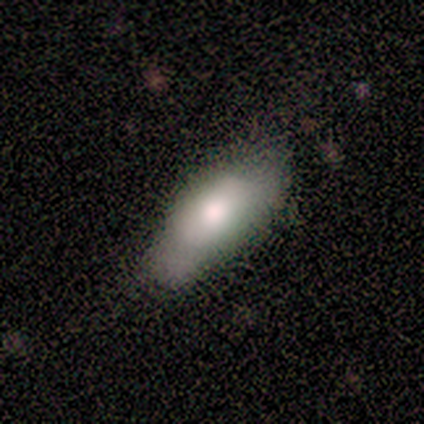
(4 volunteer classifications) Smooth or featured: smooth — 75% (featured or disk — 25%)
How rounded: in between — 100%
Merging: none — 75% (minor disturbance — 25%)